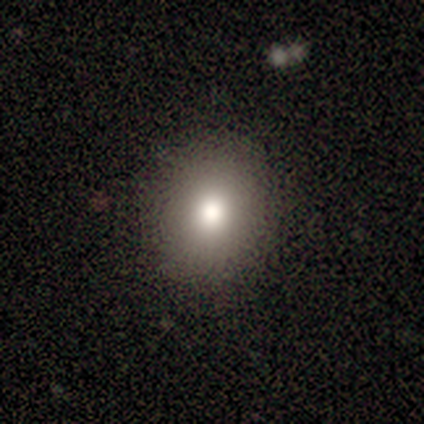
A smooth galaxy with no disk features (76%) that is round (73%).

Vote fractions:
- Smooth or featured? smooth: 76% / star or artifact: 13% / featured or disk: 11%
- How rounded? round: 73% / in between: 27% / cigar-shaped: 0%
- Merging? none: 87% / minor disturbance: 12% / major disturbance: 1% / merger: 0%